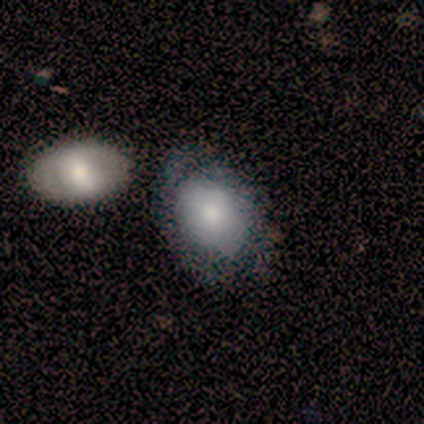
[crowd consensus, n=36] A smooth galaxy with no disk features (72%) that is in between round and cigar-shaped (77%).

Vote fractions:
- Smooth or featured? smooth: 72% / featured or disk: 22% / star or artifact: 6%
- How rounded? in between: 77% / round: 23% / cigar-shaped: 0%
- Merging? merger: 50% / none: 0% / minor disturbance: 0% / major disturbance: 0%